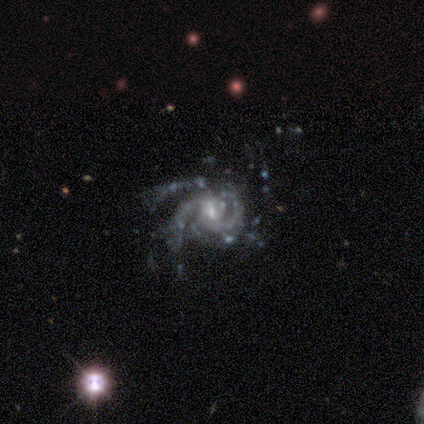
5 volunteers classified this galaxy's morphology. Overall: featured or disk (100%). Edge-on disk: no (100%). Bar: weak (80%). Spiral arms: yes (100%). Spiral arm count: 2 (80%). Spiral winding: medium (80%). Bulge size: moderate (60%; small 40%). Merging: major disturbance (60%; none 20%).